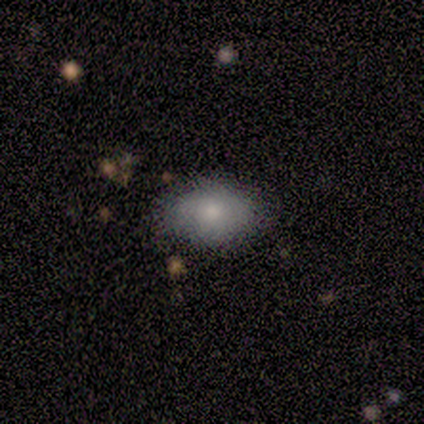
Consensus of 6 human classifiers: Smooth or featured? 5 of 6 (83%) said smooth. How rounded? 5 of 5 (100%) said in between. Merging? 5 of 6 (83%) said none.